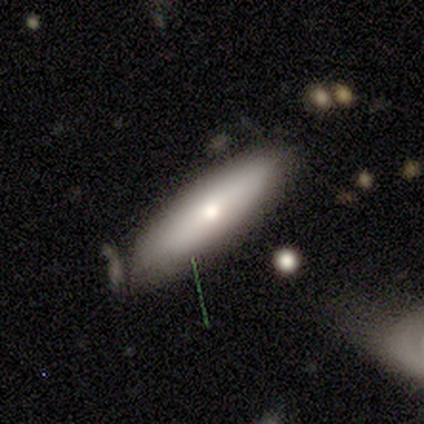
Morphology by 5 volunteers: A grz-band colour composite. It shows a smooth galaxy with no disk features (60%) that is cigar-shaped (100%). Merging: minor disturbance (60%).